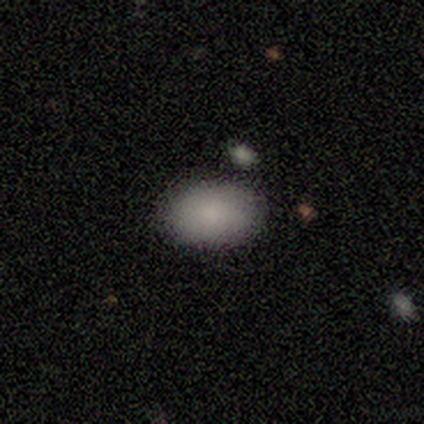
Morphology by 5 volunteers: Q: Smooth or featured?
A: smooth (100%)
Q: How rounded?
A: in between (100%)
Q: Merging?
A: none (60%); runner-up: minor disturbance (20%)